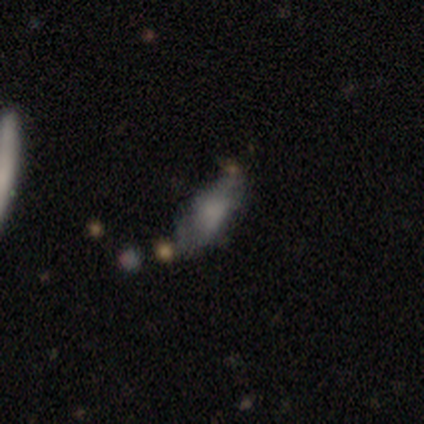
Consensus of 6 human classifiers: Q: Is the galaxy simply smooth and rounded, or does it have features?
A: smooth — 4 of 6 (67%).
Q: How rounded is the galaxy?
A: in between — 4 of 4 (100%).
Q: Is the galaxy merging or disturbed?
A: minor disturbance — 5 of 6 (83%).